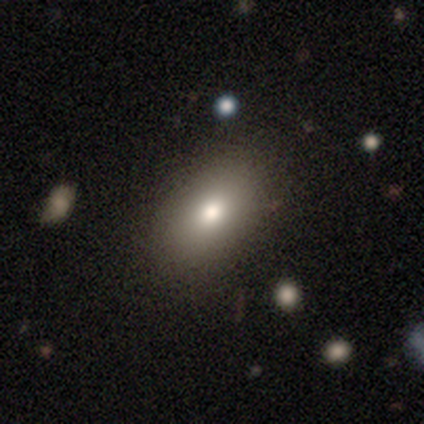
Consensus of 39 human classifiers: Smooth or featured: smooth — 90% (featured or disk — 8%)
How rounded: in between — 83% (round — 17%)
Merging: none — 89% (minor disturbance — 11%)